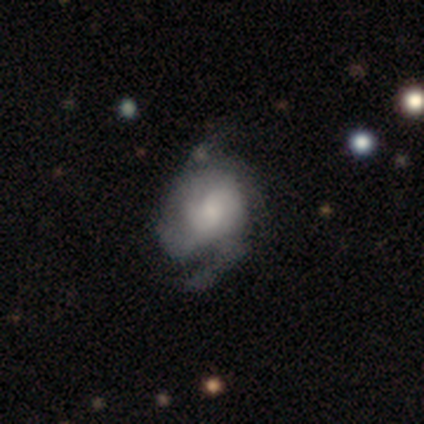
Smooth or featured? 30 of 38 (79%) said featured or disk. Edge-on disk? 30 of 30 (100%) said no. Bar? 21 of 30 (70%) said no. Spiral arms? 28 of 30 (93%) said yes. Spiral winding? 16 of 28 (57%) said medium. Spiral arm count? 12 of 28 (43%) said 2. Bulge size? 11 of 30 (37%) said moderate. Merging? 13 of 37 (35%) said none.